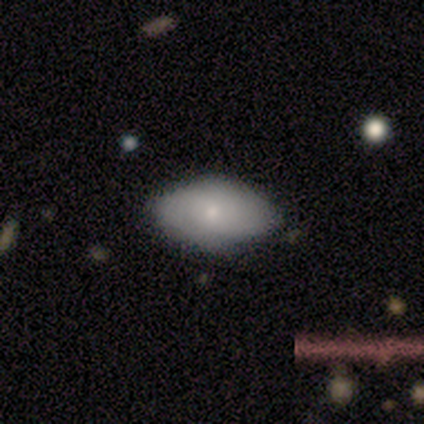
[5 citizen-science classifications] Q: Smooth or featured?
A: smooth (40%); tied with: featured or disk (40%)
Q: How rounded?
A: in between (100%)
Q: Merging?
A: none (100%)